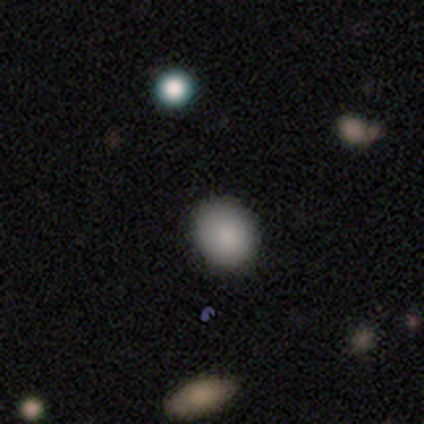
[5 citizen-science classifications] smooth-or-featured: smooth: 100% | featured or disk: 0% | star or artifact: 0%
  how-rounded: in between: 60% | round: 40% | cigar-shaped: 0%
  merging: none: 80% | minor disturbance: 20% | major disturbance: 0% | merger: 0%